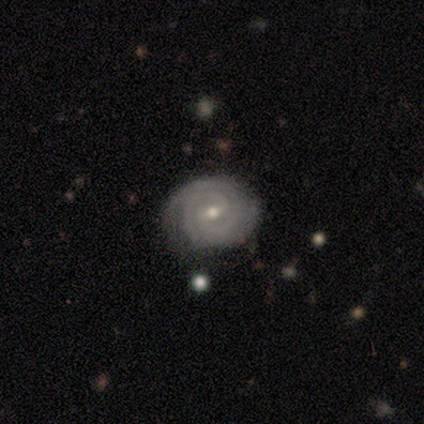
A featured or disk galaxy (100%) with a weak bar (100%), 2 (50%, tied with can't tell) tight (50%, tied with medium) spiral arms (100%) and a moderate central bulge (50%, tied with small).

Vote fractions:
- Smooth or featured? featured or disk: 100% / smooth: 0% / star or artifact: 0%
- Edge-on disk? no: 67% / yes: 33%
- Bar? weak: 100% / strong: 0% / no: 0%
- Spiral arms? yes: 100% / no: 0%
- Spiral winding? tight: 50% (tied) / medium: 50% (tied) / loose: 0%
- Spiral arm count? 2: 50% (tied) / can't tell: 50% (tied) / 1: 0% / 3: 0% / 4: 0% / more than 4: 0%
- Bulge size? moderate: 50% (tied) / small: 50% (tied) / dominant: 0% / large: 0% / none: 0%
- Merging? none: 100% / minor disturbance: 0% / major disturbance: 0% / merger: 0%